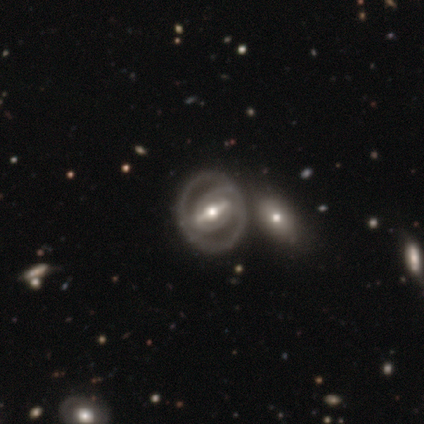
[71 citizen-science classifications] smooth_or_featured: featured or disk (p=0.89) [alt: smooth p=0.06]
disk_edge_on: no (p=0.95) [alt: yes p=0.05]
bar: strong (p=0.75) [alt: weak p=0.20]
has_spiral_arms: yes (p=0.77) [alt: no p=0.23]
spiral_winding: tight (p=0.52) [alt: medium p=0.41]
spiral_arm_count: 2 (p=0.61) [alt: 1 p=0.24]
bulge_size: moderate (p=0.70) [alt: small p=0.18]
merging: none (p=0.73) [alt: merger p=0.16]